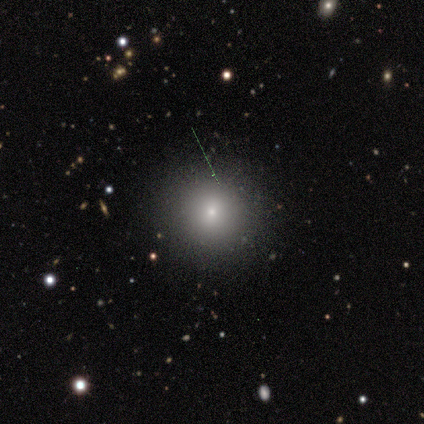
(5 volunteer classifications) Smooth or featured: smooth — 80% (star or artifact — 20%)
How rounded: round — 75% (in between — 25%)
Merging: none — 100%